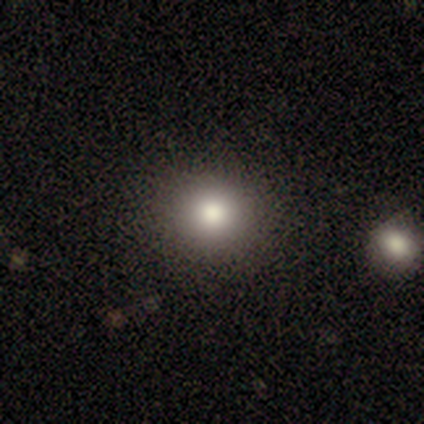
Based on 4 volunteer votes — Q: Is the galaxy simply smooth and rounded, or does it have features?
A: smooth — 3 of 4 (75%).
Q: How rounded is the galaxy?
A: round — 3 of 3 (100%).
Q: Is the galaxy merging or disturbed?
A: none — 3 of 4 (75%).